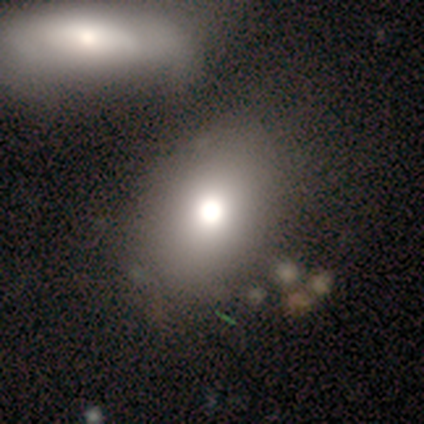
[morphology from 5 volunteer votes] Volunteers were most divided on "smooth or featured": smooth: 80%, featured or disk: 20%, star or artifact: 0%. More confident: how rounded — in between (100%); merging — none (100%).